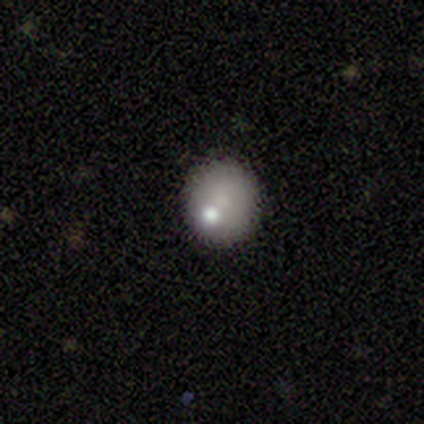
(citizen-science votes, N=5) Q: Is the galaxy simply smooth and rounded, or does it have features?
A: smooth — 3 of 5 (60%).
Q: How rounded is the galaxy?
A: round — 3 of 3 (100%).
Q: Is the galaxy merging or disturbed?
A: none — 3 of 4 (75%).